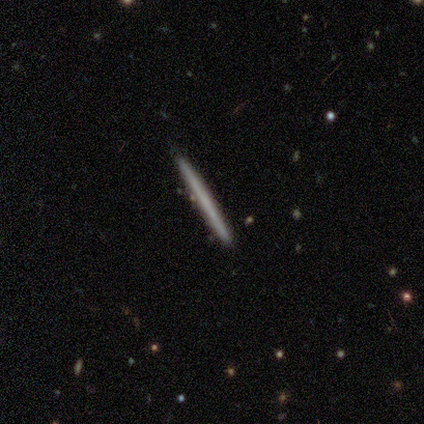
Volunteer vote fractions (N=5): Morphology: type=smooth (80%); roundness=cigar-shaped (100%); merging=none (80%).